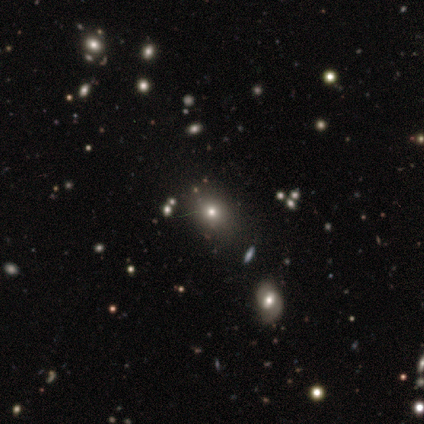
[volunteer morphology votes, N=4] smooth-or-featured: smooth: 75% | star or artifact: 25% | featured or disk: 0%
  how-rounded: round: 100% | in between: 0% | cigar-shaped: 0%
  merging: minor disturbance: 67% | none: 33% | major disturbance: 0% | merger: 0%